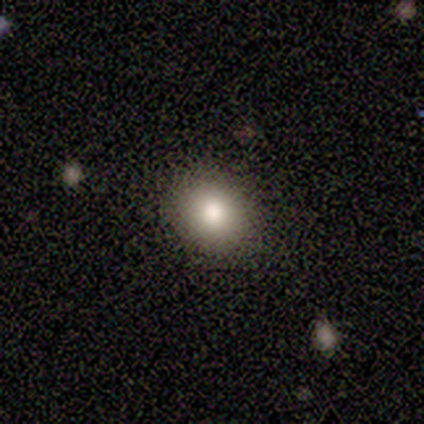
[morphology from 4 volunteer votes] Smooth or featured? smooth (100%)
How rounded? round (75%)
Merging? none (100%)